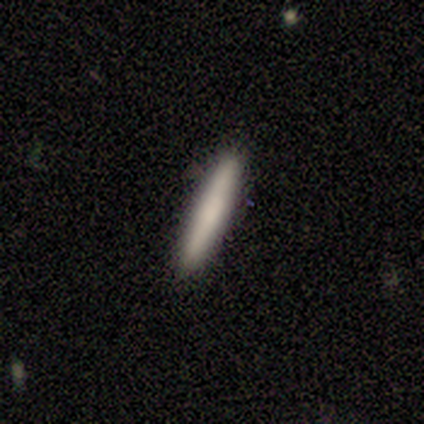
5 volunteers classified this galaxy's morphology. Consensus on every question: smooth or featured — smooth (100%); how rounded — cigar-shaped (100%); merging — none (100%).